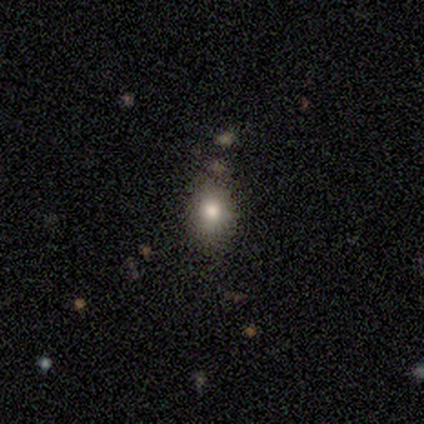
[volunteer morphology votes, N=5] Smooth or featured: smooth — 60% (star or artifact — 40%)
How rounded: round — 67% (in between — 33%)
Merging: none — 67% (minor disturbance — 33%)